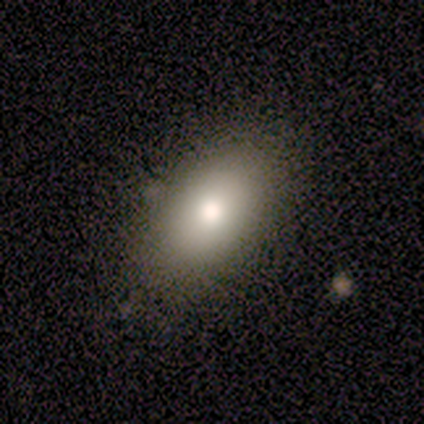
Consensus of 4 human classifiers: This is likely a smooth galaxy (75%). How rounded: likely in between (67%). Merging: likely none (75%).